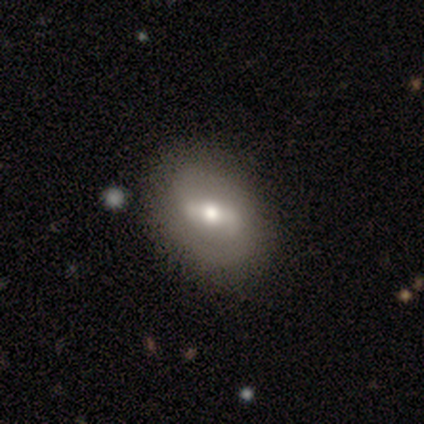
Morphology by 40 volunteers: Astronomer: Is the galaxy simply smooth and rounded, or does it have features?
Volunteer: featured or disk — 70%.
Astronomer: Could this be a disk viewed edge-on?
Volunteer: no — 96%.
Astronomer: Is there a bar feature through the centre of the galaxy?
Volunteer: strong — 48% (runner-up: weak, 44%).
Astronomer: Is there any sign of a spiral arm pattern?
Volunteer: yes — 56% (runner-up: no, 44%).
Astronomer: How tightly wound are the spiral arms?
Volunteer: medium — 60%.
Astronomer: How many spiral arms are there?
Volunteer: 2 — 80%.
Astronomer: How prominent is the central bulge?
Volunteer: moderate — 74%.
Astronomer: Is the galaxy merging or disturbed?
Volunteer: none — 87%.